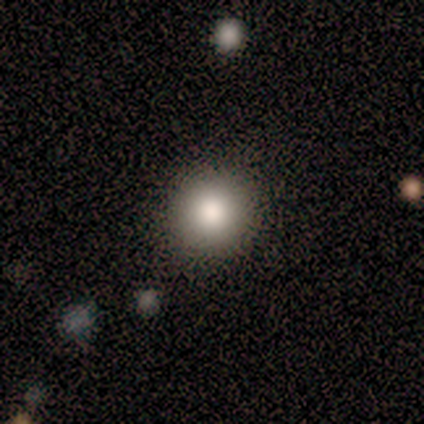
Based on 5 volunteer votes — Smooth or featured: smooth — 100%
How rounded: round — 80% (in between — 20%)
Merging: none — 100%